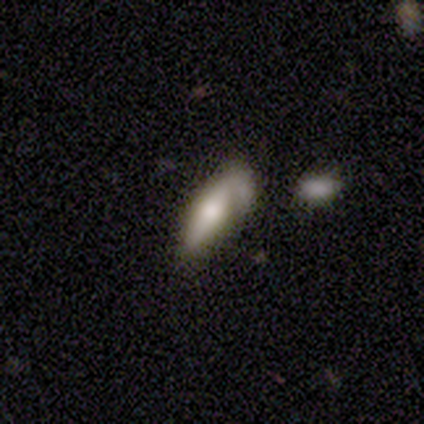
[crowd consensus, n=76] Smooth or featured?
  - smooth: 50% *
  - featured or disk: 42%
  - star or artifact: 8%
How rounded?
  - in between: 76% *
  - cigar-shaped: 24%
  - round: 0%
Merging?
  - minor disturbance: 24% *
  - none: 13%
  - major disturbance: 13%
  - merger: 10%